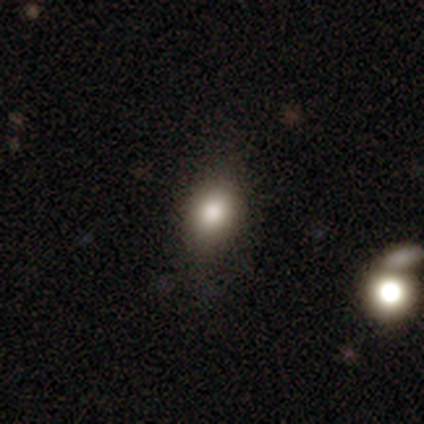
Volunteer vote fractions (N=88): Morphology: type=smooth (84%); roundness=in between (64%); merging=none (77%).